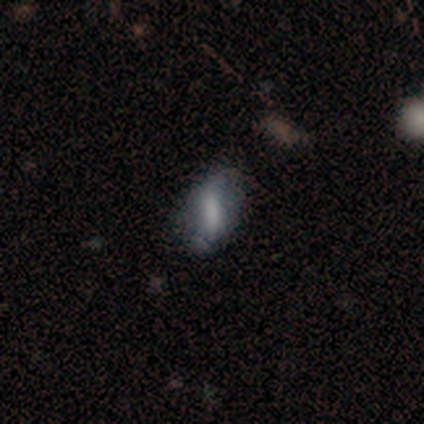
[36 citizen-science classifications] Smooth or featured?
  - smooth: 53% *
  - featured or disk: 42%
  - star or artifact: 6%
How rounded?
  - in between: 58% *
  - cigar-shaped: 32%
  - round: 11%
Merging?
  - none: 68% *
  - minor disturbance: 29%
  - major disturbance: 3%
  - merger: 0%